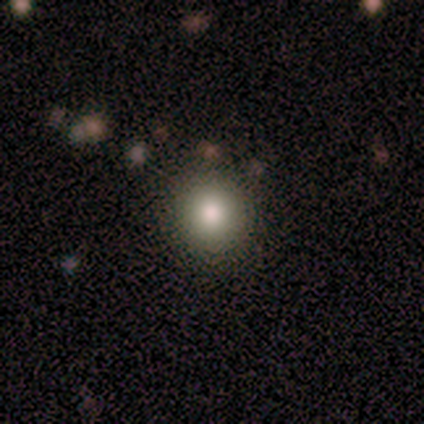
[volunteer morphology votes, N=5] Q: Smooth or featured?
A: smooth (100%)
Q: How rounded?
A: round (100%)
Q: Merging?
A: none (100%)